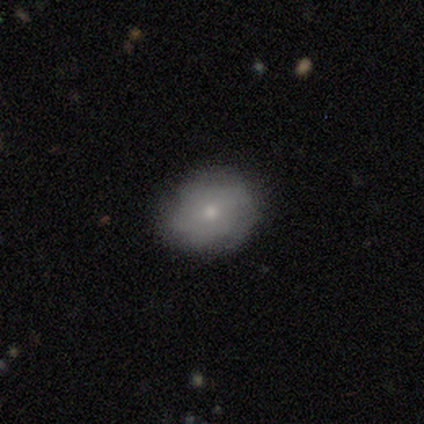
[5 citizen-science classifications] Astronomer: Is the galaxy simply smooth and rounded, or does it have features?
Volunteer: smooth — 60%.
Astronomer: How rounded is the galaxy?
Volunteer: in between — 67%.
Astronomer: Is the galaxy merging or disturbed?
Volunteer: none — 100%.